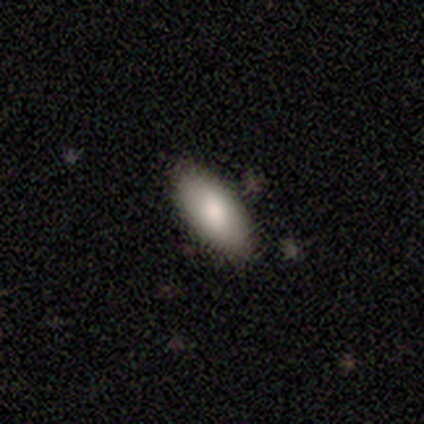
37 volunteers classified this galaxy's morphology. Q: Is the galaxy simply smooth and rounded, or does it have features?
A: smooth — 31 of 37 (84%).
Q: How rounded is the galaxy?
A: in between — 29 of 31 (94%).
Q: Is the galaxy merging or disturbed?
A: none — 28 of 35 (80%).